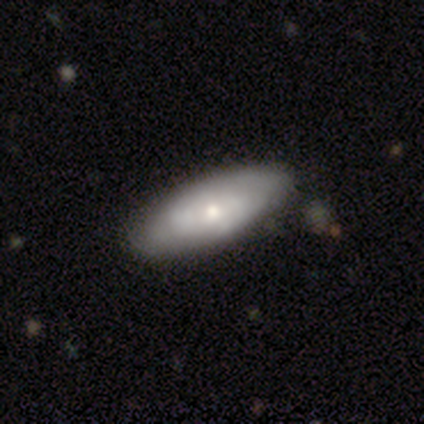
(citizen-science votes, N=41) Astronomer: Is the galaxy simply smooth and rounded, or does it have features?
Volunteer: smooth — 54% (runner-up: featured or disk, 39%).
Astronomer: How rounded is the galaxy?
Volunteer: in between — 86%.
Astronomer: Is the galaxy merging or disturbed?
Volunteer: none — 82%.